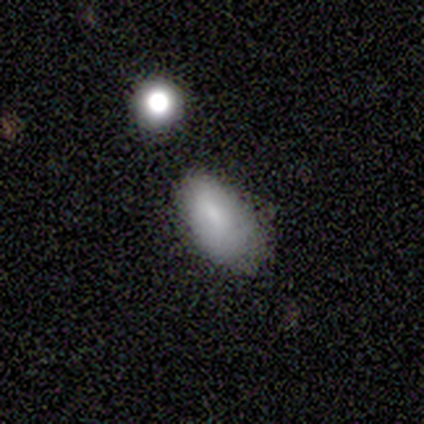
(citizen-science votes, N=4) Volunteers were most divided on "how rounded": in between: 67%, cigar-shaped: 33%, round: 0%. More confident: merging — minor disturbance (100%); smooth or featured — smooth (75%).